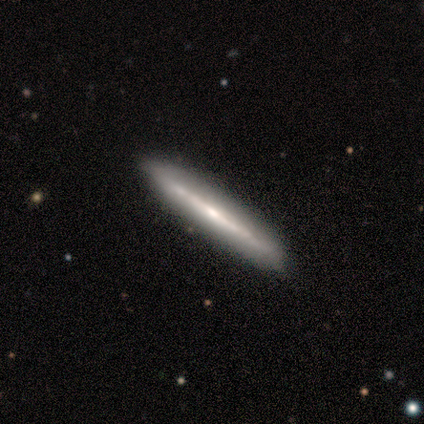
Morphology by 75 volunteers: A featured or disk galaxy (69%) viewed edge-on (98%) with no central bulge (59%). Merging: none (89%).